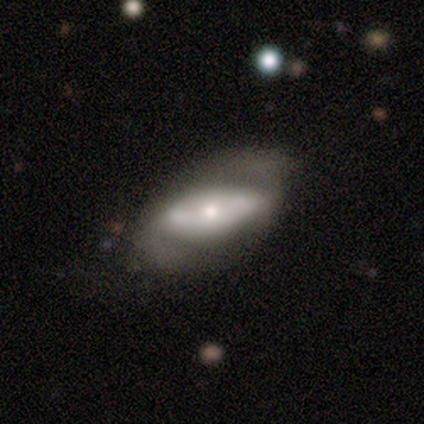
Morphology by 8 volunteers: type=featured or disk (62%); edge-on=no (80%); bar=no (75%); spiral arms=no (100%); bulge=moderate (75%); merging=major disturbance (50%).